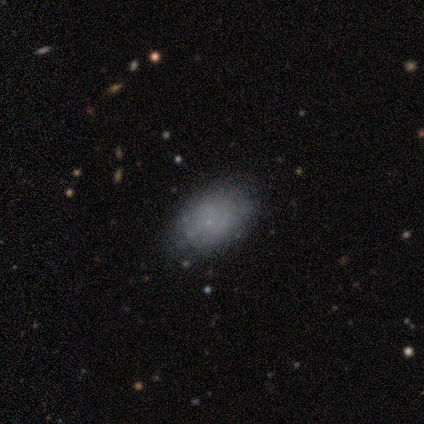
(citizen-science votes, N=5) This appears to be a smooth galaxy with no disk features (100%) that is in between round and cigar-shaped (80%). Merging: none (80%).